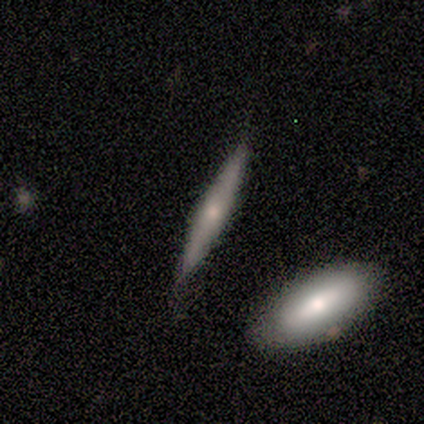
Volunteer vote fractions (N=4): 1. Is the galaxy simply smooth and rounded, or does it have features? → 100% smooth, 0% featured or disk, 0% star or artifact.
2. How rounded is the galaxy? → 100% cigar-shaped, 0% round, 0% in between.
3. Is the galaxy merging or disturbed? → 100% none, 0% minor disturbance, 0% major disturbance, 0% merger.